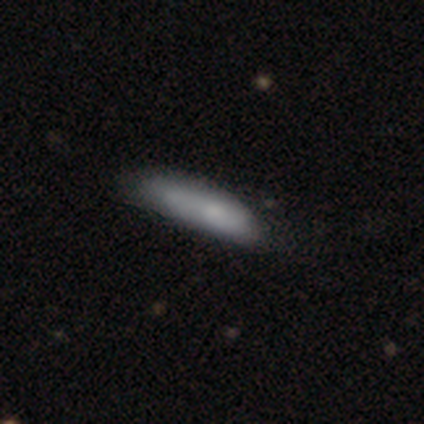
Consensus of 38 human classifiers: This is clearly a smooth galaxy (84%). How rounded: likely cigar-shaped (69%). Merging: possibly none (51%).